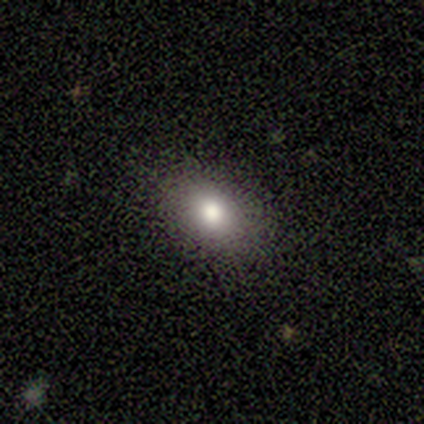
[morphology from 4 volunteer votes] Q: Smooth or featured?
A: smooth (50%); tied with: featured or disk (50%)
Q: How rounded?
A: round (100%)
Q: Merging?
A: none (100%)